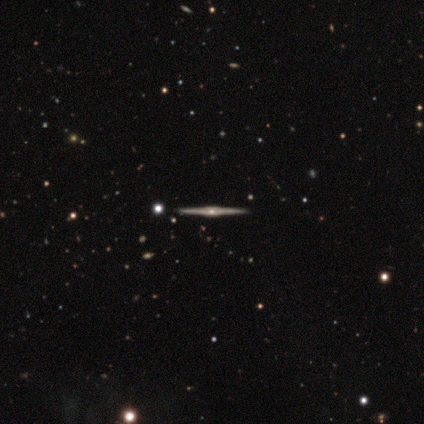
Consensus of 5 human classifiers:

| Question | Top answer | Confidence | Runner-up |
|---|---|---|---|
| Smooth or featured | featured or disk | 100% | — |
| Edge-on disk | yes | 100% | — |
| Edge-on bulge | boxy | 100% | — |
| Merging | none | 100% | — |